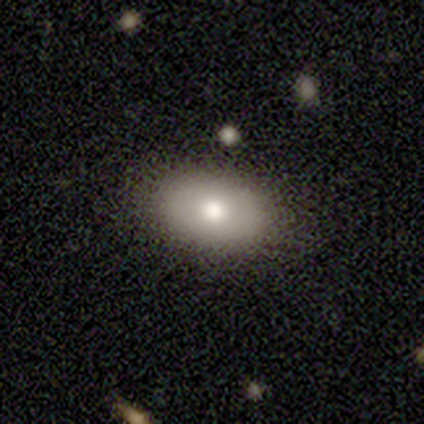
Smooth or featured: smooth — 100%
How rounded: in between — 100%
Merging: none — 100%